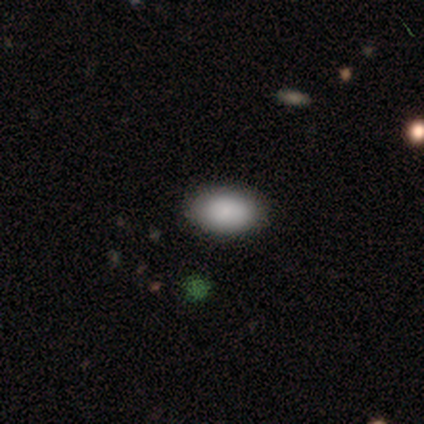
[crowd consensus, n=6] smooth_or_featured: smooth (p=0.67) [alt: featured or disk p=0.33]
how_rounded: in between (p=1.00)
merging: none (p=0.67) [alt: minor disturbance p=0.33]